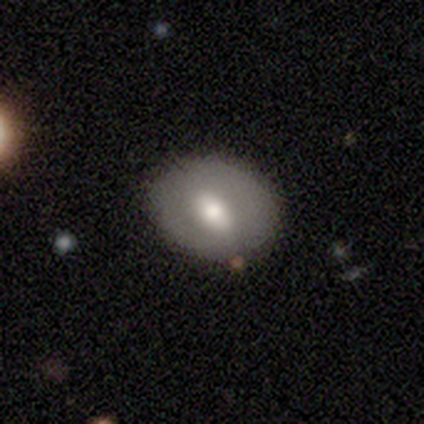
A smooth galaxy with no disk features (66%) that is in between round and cigar-shaped (61%).

Vote fractions:
- Smooth or featured? smooth: 66% / featured or disk: 30% / star or artifact: 4%
- How rounded? in between: 61% / round: 39% / cigar-shaped: 0%
- Merging? none: 80% / minor disturbance: 13% / major disturbance: 7% / merger: 0%